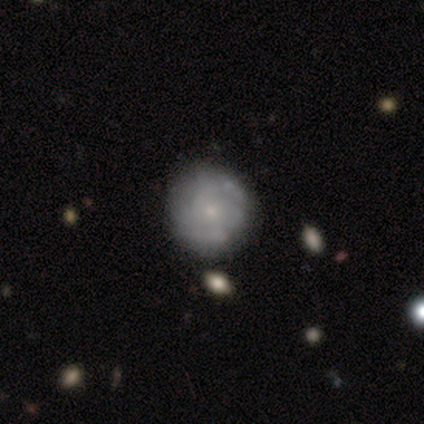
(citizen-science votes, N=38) A featured or disk galaxy (58%) with no bar (95%), medium (61%) spiral arms (82%) and a small central bulge (82%). Merging: none (38%).